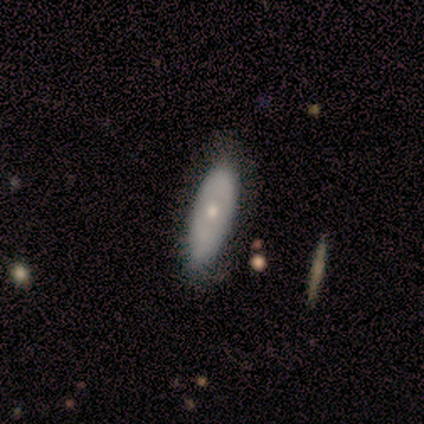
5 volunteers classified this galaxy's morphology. A smooth galaxy with no disk features (80%) that is in between round and cigar-shaped (100%).

Vote fractions:
- Smooth or featured? smooth: 80% / featured or disk: 20% / star or artifact: 0%
- How rounded? in between: 100% / round: 0% / cigar-shaped: 0%
- Merging? minor disturbance: 60% / none: 40% / major disturbance: 0% / merger: 0%